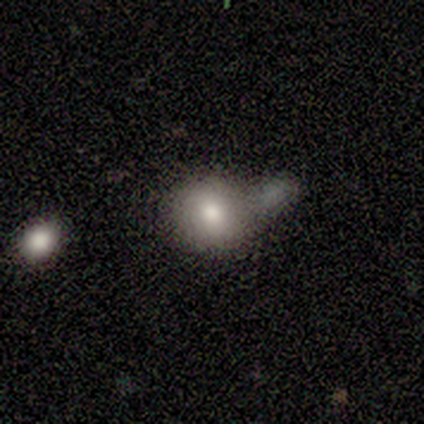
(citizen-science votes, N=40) Q: Smooth or featured?
A: smooth (75%); runner-up: featured or disk (20%)
Q: How rounded?
A: round (70%); runner-up: in between (30%)
Q: Merging?
A: merger (42%); runner-up: none (32%)